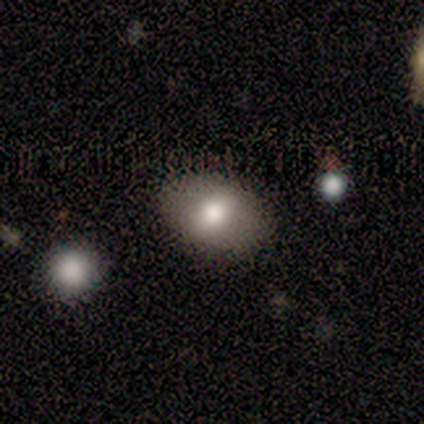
Smooth or featured? smooth (88%)
How rounded? in between (100%)
Merging? none (88%)